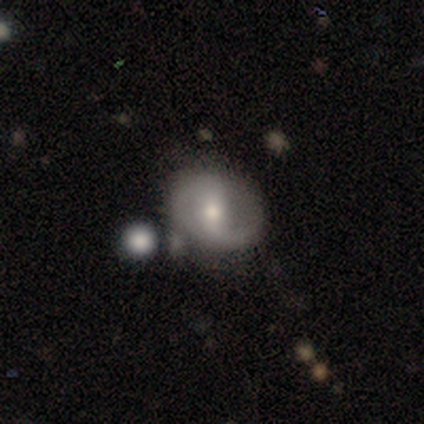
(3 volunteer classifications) Overall: smooth (67%; featured or disk 33%). How rounded: in between (100%). Merging: none (100%).